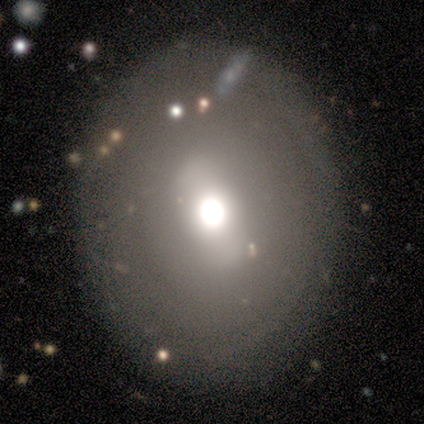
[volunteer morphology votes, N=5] Smooth or featured: smooth — 80% (featured or disk — 20%)
How rounded: round — 50% (tied with in between — 50%)
Merging: none — 100%